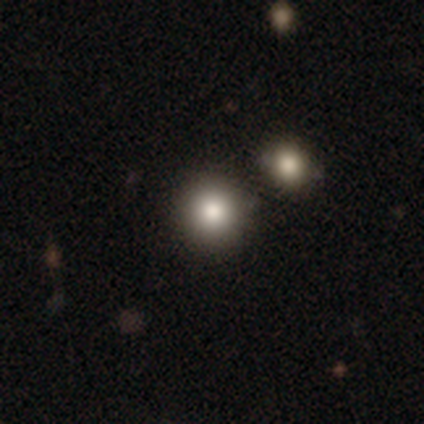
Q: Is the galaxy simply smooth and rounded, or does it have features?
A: smooth — 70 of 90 (78%).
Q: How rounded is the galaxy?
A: round — 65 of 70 (93%).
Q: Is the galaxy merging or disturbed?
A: none — 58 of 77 (75%).